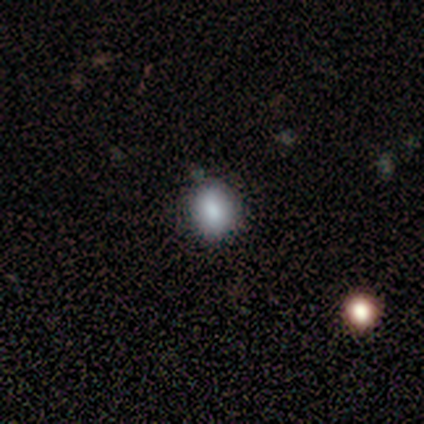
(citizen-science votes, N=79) smooth-or-featured: smooth: 86% | star or artifact: 8% | featured or disk: 6%
  how-rounded: round: 63% | in between: 35% | cigar-shaped: 1%
  merging: none: 38% | minor disturbance: 8% | merger: 3% | major disturbance: 1%